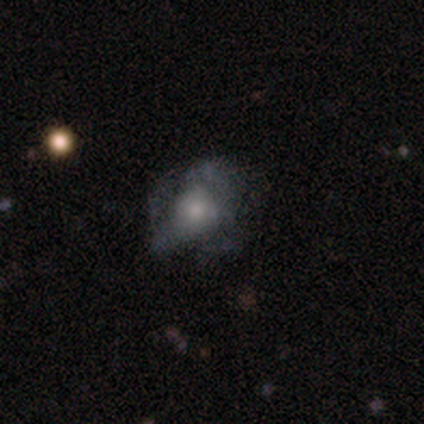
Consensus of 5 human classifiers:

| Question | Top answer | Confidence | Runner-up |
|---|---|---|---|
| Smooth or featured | featured or disk | 60% | smooth (40%) |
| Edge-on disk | no | 100% | — |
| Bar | no | 100% | — |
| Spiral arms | no | 100% | — |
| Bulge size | large | 33% | tied: moderate (33%), small (33%) |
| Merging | none | 40% | minor disturbance (20%) |